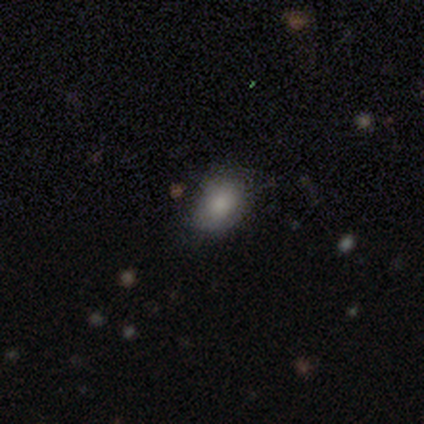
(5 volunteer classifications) Smooth or featured?
  - smooth: 80% *
  - star or artifact: 20%
  - featured or disk: 0%
How rounded?
  - in between: 75% *
  - round: 25%
  - cigar-shaped: 0%
Merging?
  - none: 75% *
  - minor disturbance: 25%
  - major disturbance: 0%
  - merger: 0%